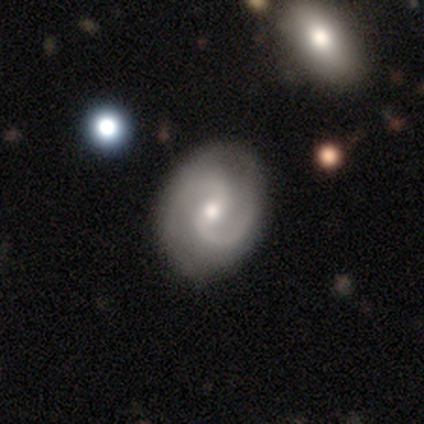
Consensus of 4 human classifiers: smooth_or_featured: featured or disk (p=1.00)
disk_edge_on: no (p=1.00)
bar: weak (p=0.75) [alt: no p=0.25]
has_spiral_arms: yes (p=1.00)
spiral_winding: medium (p=1.00)
spiral_arm_count: 2 (p=1.00)
bulge_size: moderate (p=0.75) [alt: small p=0.25]
merging: none (p=0.50) [alt: minor disturbance p=0.25]